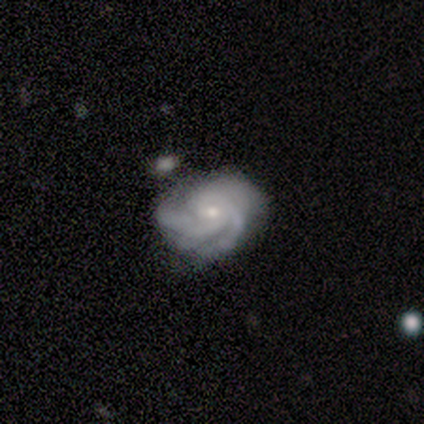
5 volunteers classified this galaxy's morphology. A featured or disk galaxy (100%) with no bar (80%), 3 (80%) tight (60%) spiral arms (100%) and a moderate central bulge (60%). Merging: none (40%, tied with minor disturbance).